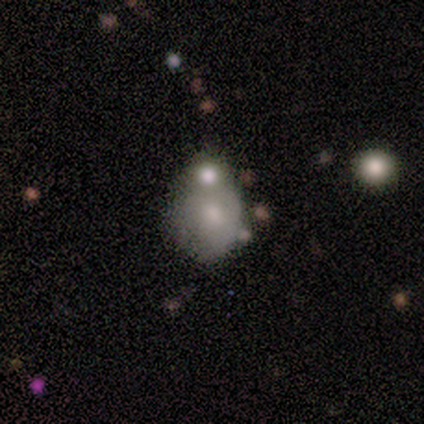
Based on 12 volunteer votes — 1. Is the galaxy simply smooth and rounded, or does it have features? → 58% smooth, 33% featured or disk, 8% star or artifact.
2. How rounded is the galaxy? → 57% round, 43% in between, 0% cigar-shaped.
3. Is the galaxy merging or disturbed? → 45% none (tied), 45% merger (tied), 9% major disturbance, 0% minor disturbance.